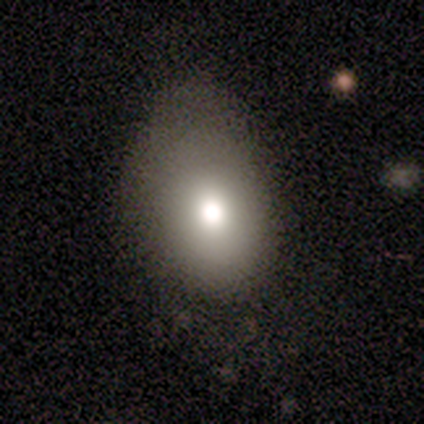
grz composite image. It shows a smooth galaxy with no disk features (80%) that is in between round and cigar-shaped (75%). Merging: minor disturbance (50%).